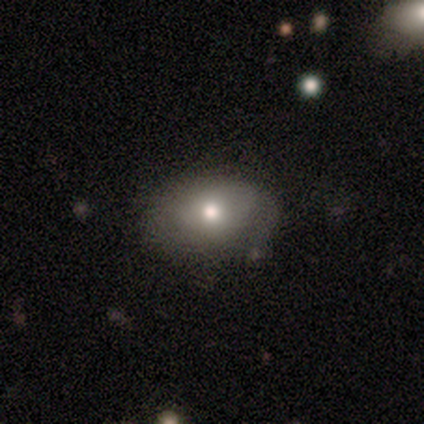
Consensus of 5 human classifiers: Overall: smooth (40%, tied with featured or disk). How rounded: in between (100%). Merging: none (75%).